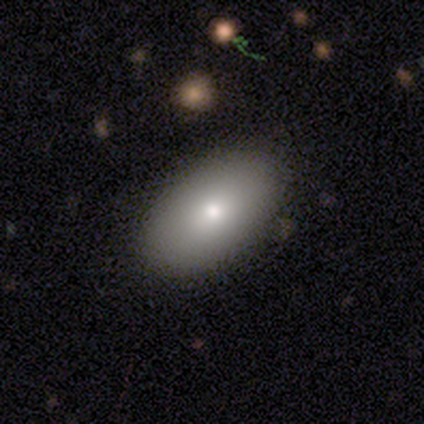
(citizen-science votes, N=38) Volunteers were most divided on "smooth or featured": smooth: 76%, featured or disk: 13%, star or artifact: 11%. More confident: merging — none (91%); how rounded — in between (90%).